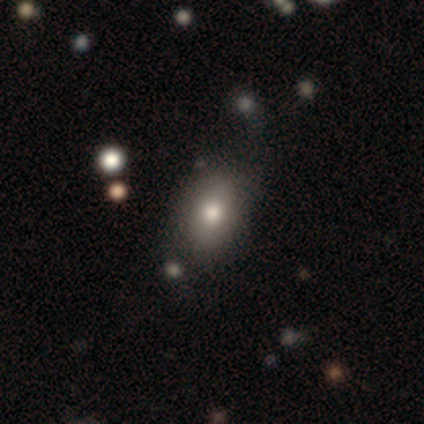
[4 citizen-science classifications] This appears to be a smooth galaxy with no disk features (100%) that is in between round and cigar-shaped (100%). Merging: none (75%).